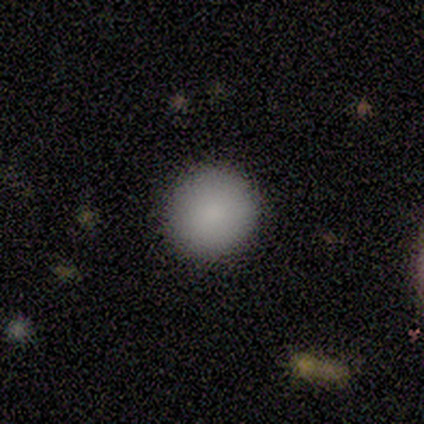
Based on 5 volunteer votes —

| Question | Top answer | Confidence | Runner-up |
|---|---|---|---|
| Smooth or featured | smooth | 80% | featured or disk (20%) |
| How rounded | round | 50% | tied: in between (50%) |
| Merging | none | 100% | — |